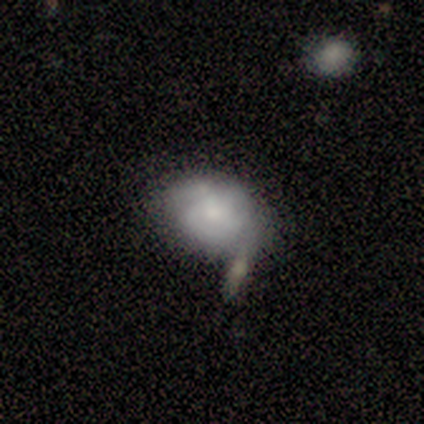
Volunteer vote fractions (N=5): Smooth or featured?
  - smooth: 40% * (tied)
  - featured or disk: 40% * (tied)
  - star or artifact: 20%
How rounded?
  - round: 50% * (tied)
  - in between: 50% * (tied)
  - cigar-shaped: 0%
Merging?
  - none: 75% *
  - major disturbance: 25%
  - minor disturbance: 0%
  - merger: 0%